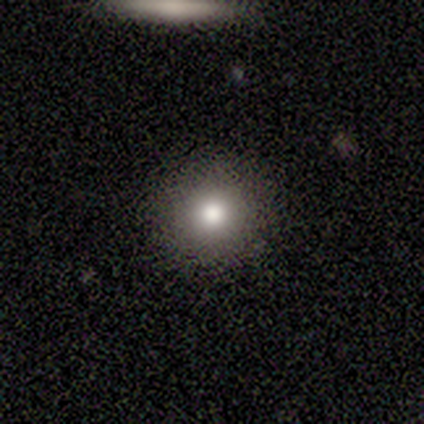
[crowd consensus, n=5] smooth 60%, star or artifact 40%, featured or disk 0%. Down the decision tree: how rounded — round (100%); merging — none (100%).